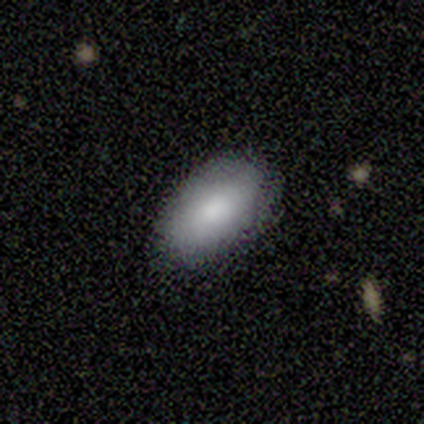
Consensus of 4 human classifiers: A smooth galaxy with no disk features (75%) that is in between round and cigar-shaped (100%).

Vote fractions:
- Smooth or featured? smooth: 75% / featured or disk: 25% / star or artifact: 0%
- How rounded? in between: 100% / round: 0% / cigar-shaped: 0%
- Merging? none: 100% / minor disturbance: 0% / major disturbance: 0% / merger: 0%